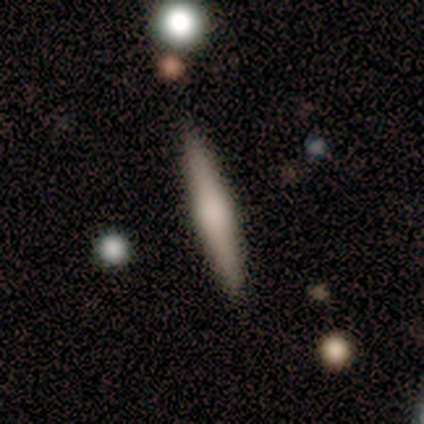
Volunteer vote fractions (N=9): Q: Smooth or featured?
A: featured or disk (44%); runner-up: smooth (33%)
Q: Edge-on disk?
A: yes (100%)
Q: Edge-on bulge?
A: rounded (75%); runner-up: none (25%)
Q: Merging?
A: none (100%)